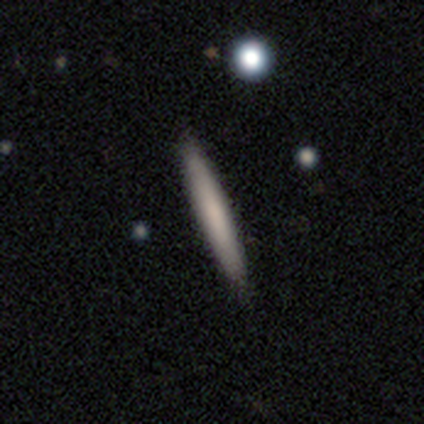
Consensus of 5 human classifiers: Volunteers were most divided on "merging": none: 60%, minor disturbance: 40%, major disturbance: 0%, merger: 0%. More confident: how rounded — cigar-shaped (100%); smooth or featured — smooth (80%).